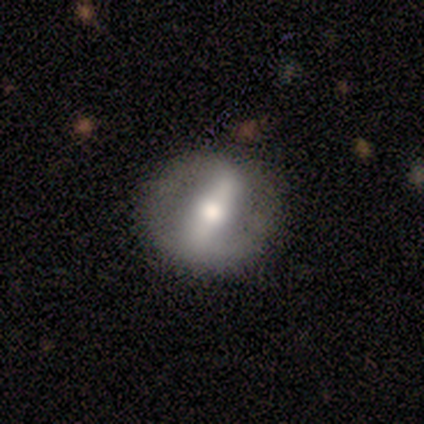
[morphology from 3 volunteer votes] Smooth or featured? featured or disk (100%)
Edge-on disk? no (67%)
Bar? strong (100%)
Spiral arms? yes (50%, tied with no)
Spiral winding? medium (100%)
Spiral arm count? 2 (100%)
Bulge size? moderate (100%)
Merging? none (67%)